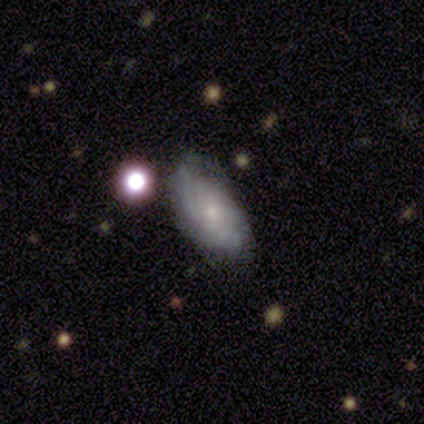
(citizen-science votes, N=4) A featured or disk galaxy (75%) with no bar (100%), medium (67%) spiral arms (100%) and a small central bulge (100%).

Vote fractions:
- Smooth or featured? featured or disk: 75% / smooth: 25% / star or artifact: 0%
- Edge-on disk? no: 100% / yes: 0%
- Bar? no: 100% / strong: 0% / weak: 0%
- Spiral arms? yes: 100% / no: 0%
- Spiral winding? medium: 67% / loose: 33% / tight: 0%
- Spiral arm count? can't tell: 100% / 1: 0% / 2: 0% / 3: 0% / 4: 0% / more than 4: 0%
- Bulge size? small: 100% / dominant: 0% / large: 0% / moderate: 0% / none: 0%
- Merging? none: 50% (tied) / minor disturbance: 50% (tied) / major disturbance: 0% / merger: 0%